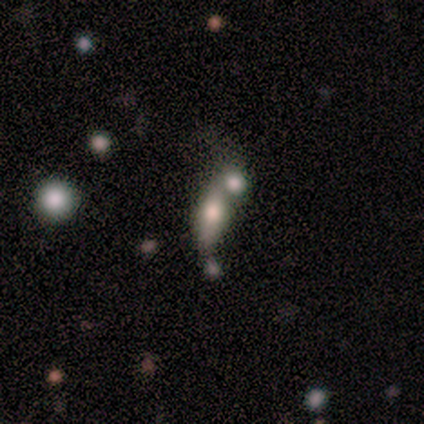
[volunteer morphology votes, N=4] A smooth galaxy with no disk features (75%) that is in between round and cigar-shaped (67%).

Vote fractions:
- Smooth or featured? smooth: 75% / star or artifact: 25% / featured or disk: 0%
- How rounded? in between: 67% / cigar-shaped: 33% / round: 0%
- Merging? merger: 67% / none: 33% / minor disturbance: 0% / major disturbance: 0%